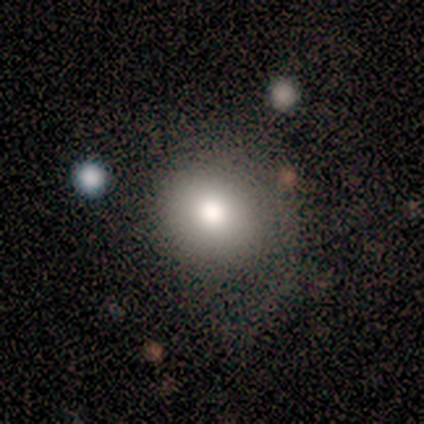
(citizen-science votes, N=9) Smooth or featured? smooth (56%)
How rounded? round (60%)
Merging? minor disturbance (71%)